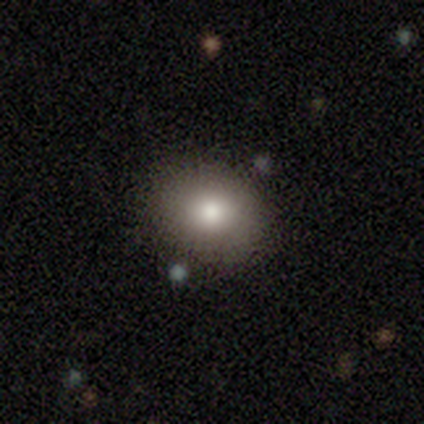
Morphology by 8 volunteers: This appears to be a smooth galaxy with no disk features (75%) that is round (50%, tied with in between). Merging: none (100%).